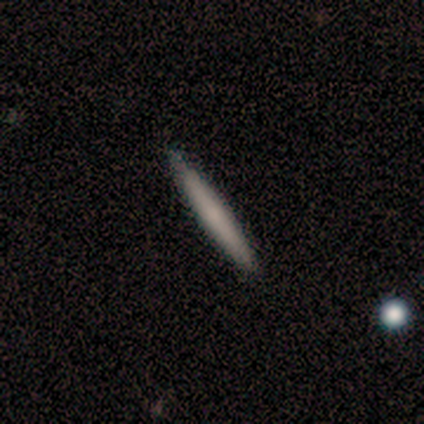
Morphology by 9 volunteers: This is possibly a smooth galaxy (56%). How rounded: clearly cigar-shaped (100%). Merging: clearly none (89%).